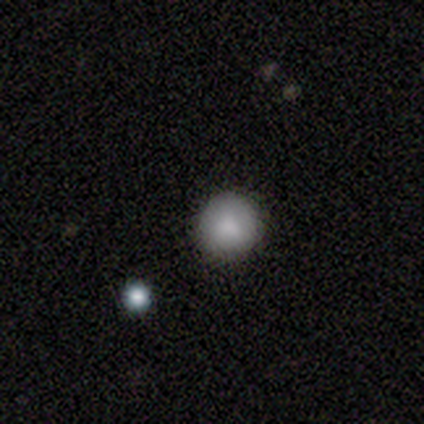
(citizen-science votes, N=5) Volunteers were most divided on "how rounded": round: 67%, in between: 33%, cigar-shaped: 0%. More confident: merging — none (75%); smooth or featured — smooth (60%).